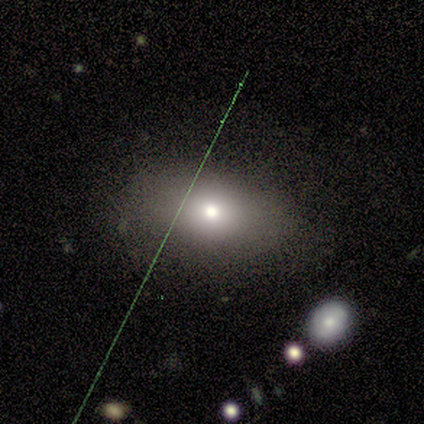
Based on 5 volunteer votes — Smooth or featured? 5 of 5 (100%) said smooth. How rounded? 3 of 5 (60%) said in between. Merging? 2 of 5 (40%, tied with minor disturbance) said none.